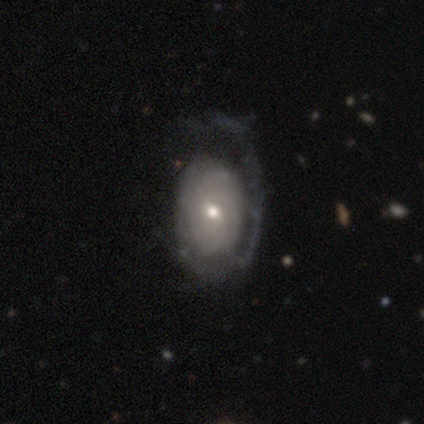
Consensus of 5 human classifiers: featured or disk 80%, smooth 20%, star or artifact 0%. Down the decision tree: edge-on disk — no (100%); bar — no (50%); spiral arms — yes (100%); spiral arm count — can't tell (75%); spiral winding — tight (100%); bulge size — moderate (100%); merging — minor disturbance (40%, tied with major disturbance).